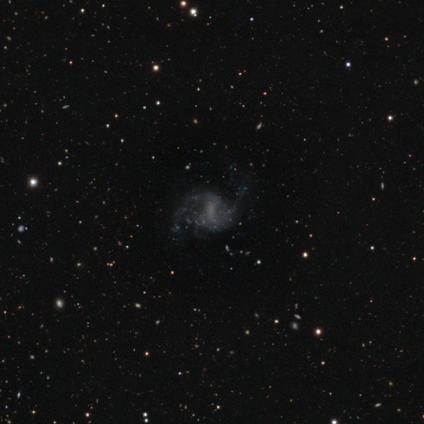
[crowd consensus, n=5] A featured or disk galaxy (60%) with a weak bar (100%), 2 (100%) medium (67%) spiral arms (100%) and a small central bulge (67%).

Vote fractions:
- Smooth or featured? featured or disk: 60% / smooth: 20% / star or artifact: 20%
- Edge-on disk? no: 100% / yes: 0%
- Bar? weak: 100% / strong: 0% / no: 0%
- Spiral arms? yes: 100% / no: 0%
- Spiral winding? medium: 67% / loose: 33% / tight: 0%
- Spiral arm count? 2: 100% / 1: 0% / 3: 0% / 4: 0% / more than 4: 0% / can't tell: 0%
- Bulge size? small: 67% / none: 33% / dominant: 0% / large: 0% / moderate: 0%
- Merging? none: 50% (tied) / major disturbance: 50% (tied) / minor disturbance: 0% / merger: 0%